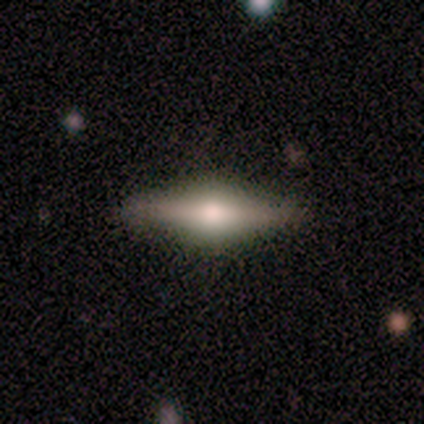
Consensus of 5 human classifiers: A featured or disk galaxy (80%) viewed edge-on (100%) with a rounded central bulge (100%).

Vote fractions:
- Smooth or featured? featured or disk: 80% / smooth: 20% / star or artifact: 0%
- Edge-on disk? yes: 100% / no: 0%
- Edge-on bulge? rounded: 100% / boxy: 0% / none: 0%
- Merging? none: 100% / minor disturbance: 0% / major disturbance: 0% / merger: 0%